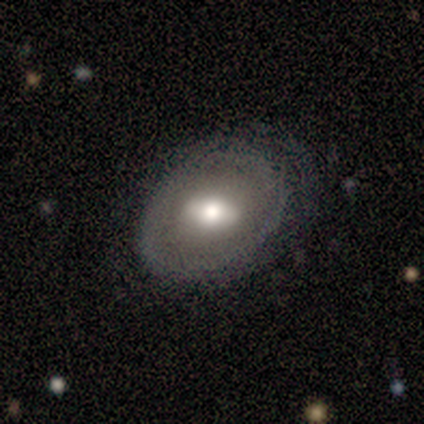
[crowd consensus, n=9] Morphology: type=featured or disk (67%); edge-on=no (83%); bar=weak (40%, tied with no); spiral arms=no (60%); bulge=moderate (60%); merging=none (56%).